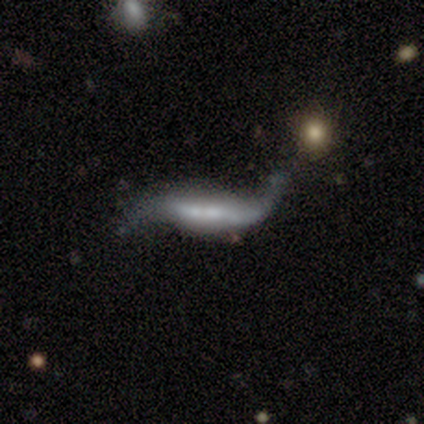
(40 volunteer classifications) Smooth or featured? featured or disk (70%)
Edge-on disk? no (75%)
Bar? strong (52%)
Spiral arms? yes (90%)
Spiral winding? loose (95%)
Spiral arm count? 2 (79%)
Bulge size? small (43%)
Merging? none (41%)